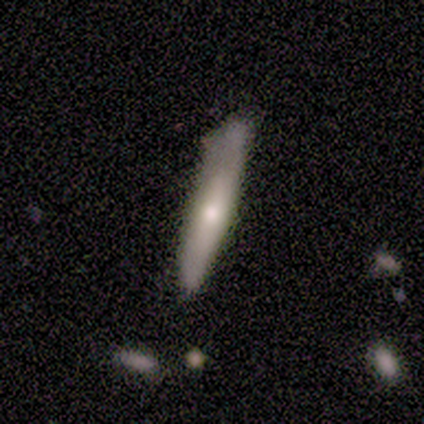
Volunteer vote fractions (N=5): This appears to be a smooth galaxy with no disk features (60%) that is cigar-shaped (100%). Merging: none (80%).